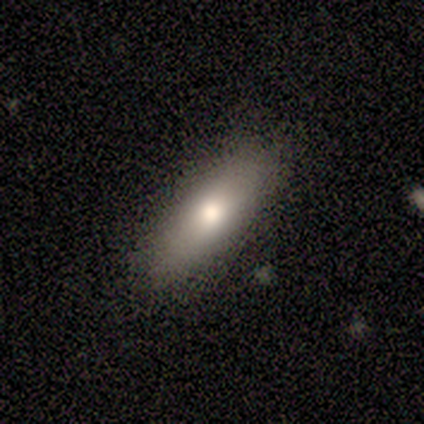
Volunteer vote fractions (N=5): Smooth or featured: smooth — 60% (featured or disk — 40%)
How rounded: in between — 67% (cigar-shaped — 33%)
Merging: none — 60% (minor disturbance — 20%)